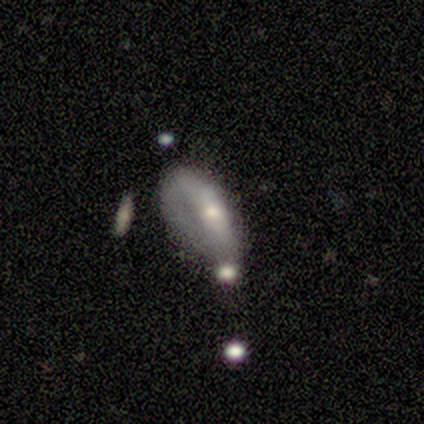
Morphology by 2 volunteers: Volunteers were most divided on "smooth or featured" (2-way tie): smooth: 50%, featured or disk: 50%, star or artifact: 0%; "merging" (2-way tie): minor disturbance: 50%, major disturbance: 50%, none: 0%, merger: 0%. More confident: how rounded — in between (100%).